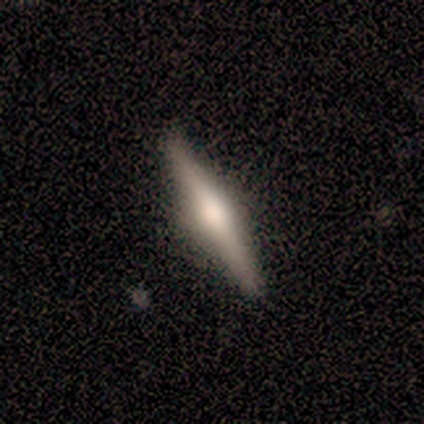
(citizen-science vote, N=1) Smooth or featured?
  - featured or disk: 100% *
  - smooth: 0%
  - star or artifact: 0%
Edge-on disk?
  - yes: 100% *
  - no: 0%
Edge-on bulge?
  - rounded: 100% *
  - boxy: 0%
  - none: 0%
Merging?
  - none: 100% *
  - minor disturbance: 0%
  - major disturbance: 0%
  - merger: 0%